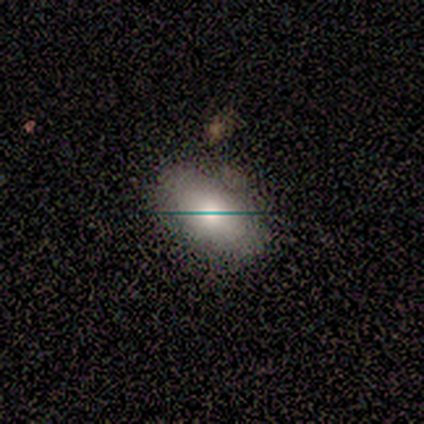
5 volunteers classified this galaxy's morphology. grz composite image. It shows a smooth galaxy with no disk features (80%) that is in between round and cigar-shaped (75%). Merging: none (80%).